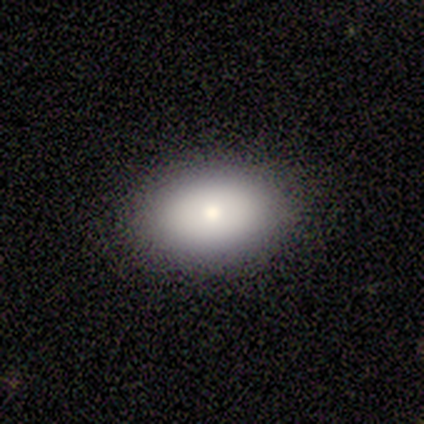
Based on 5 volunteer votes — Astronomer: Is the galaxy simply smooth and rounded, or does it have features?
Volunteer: smooth — 60% (runner-up: star or artifact, 40%).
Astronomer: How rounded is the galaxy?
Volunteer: in between — 100%.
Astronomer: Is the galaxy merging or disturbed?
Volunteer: none — 100%.